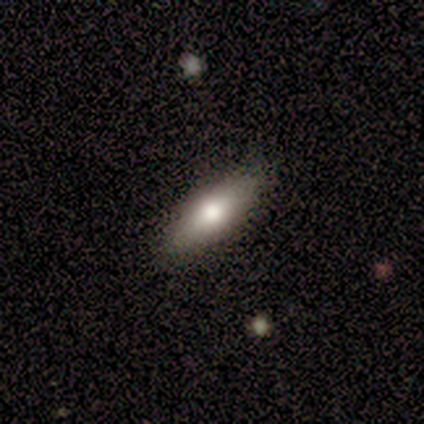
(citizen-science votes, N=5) A smooth galaxy with no disk features (40%, tied with featured or disk) that is in between round and cigar-shaped (50%, tied with cigar-shaped).

Vote fractions:
- Smooth or featured? smooth: 40% (tied) / featured or disk: 40% (tied) / star or artifact: 20%
- How rounded? in between: 50% (tied) / cigar-shaped: 50% (tied) / round: 0%
- Merging? none: 100% / minor disturbance: 0% / major disturbance: 0% / merger: 0%